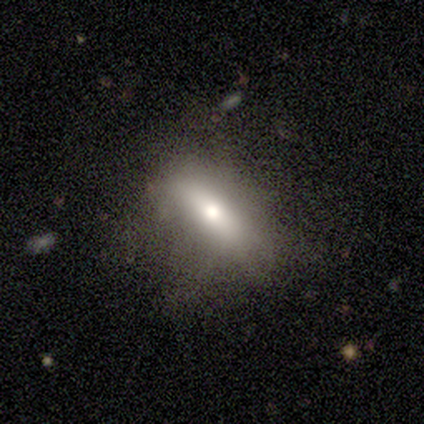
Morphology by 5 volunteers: smooth_or_featured: featured or disk (p=0.60) [alt: smooth p=0.40]
disk_edge_on: no (p=1.00)
bar: no (p=0.67) [alt: strong p=0.33]
has_spiral_arms: no (p=1.00)
bulge_size: moderate (p=0.67) [alt: small p=0.33]
merging: none (p=0.80) [alt: major disturbance p=0.20]